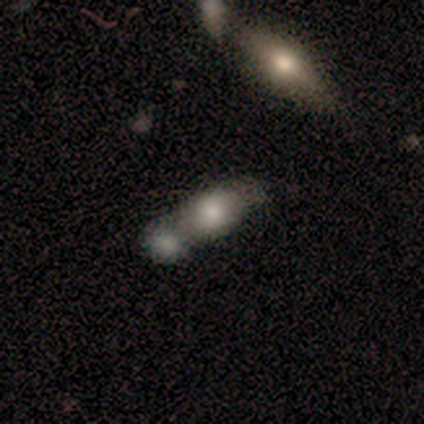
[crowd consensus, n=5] Q: Smooth or featured?
A: smooth (100%)
Q: How rounded?
A: in between (60%); runner-up: round (40%)
Q: Merging?
A: merger (80%); runner-up: minor disturbance (20%)